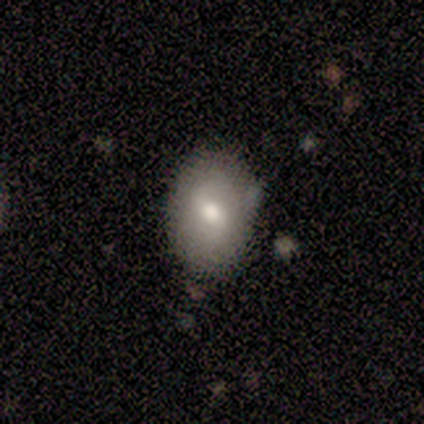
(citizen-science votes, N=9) smooth-or-featured: smooth: 67% | featured or disk: 22% | star or artifact: 11%
  how-rounded: in between: 83% | round: 17% | cigar-shaped: 0%
  merging: none: 88% | merger: 12% | minor disturbance: 0% | major disturbance: 0%